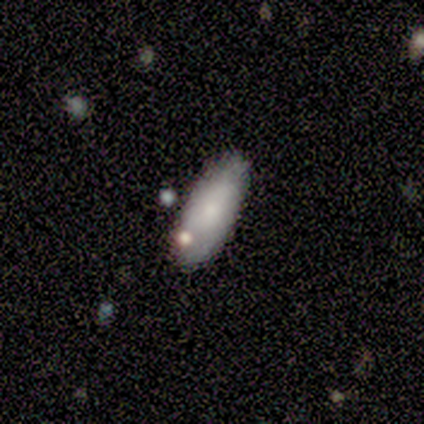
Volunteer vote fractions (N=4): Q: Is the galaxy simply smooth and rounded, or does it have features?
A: smooth — 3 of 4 (75%).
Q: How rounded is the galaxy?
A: cigar-shaped — 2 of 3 (67%).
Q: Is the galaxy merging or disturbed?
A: none — 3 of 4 (75%).